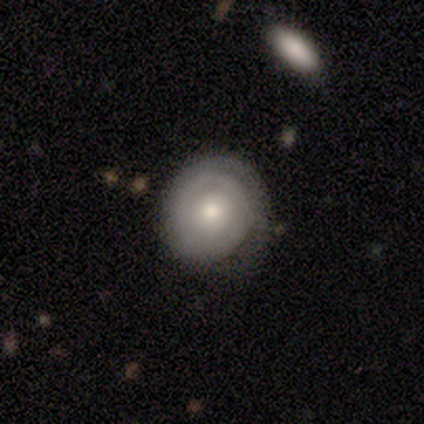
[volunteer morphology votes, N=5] This appears to be a featured or disk galaxy (60%) with no bar (67%), no spiral arms (67%) and a moderate central bulge (100%). Merging: none (60%).